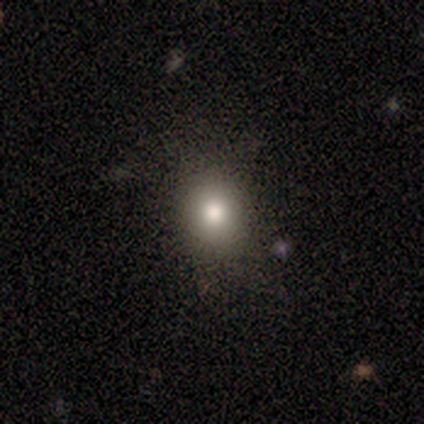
smooth 80%, star or artifact 20%, featured or disk 0%. Down the decision tree: how rounded — round (75%); merging — none (75%).